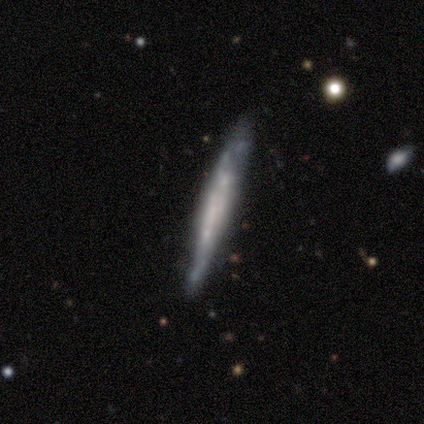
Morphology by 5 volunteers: This is likely a smooth galaxy (60%). How rounded: clearly cigar-shaped (100%). Merging: clearly none (80%).